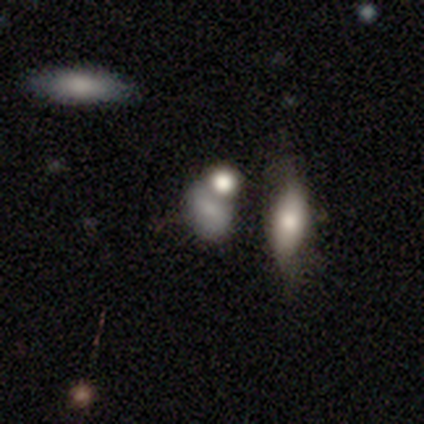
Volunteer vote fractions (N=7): Morphology: type=smooth (57%); roundness=in between (100%); merging=none (25%, tied with minor disturbance, major disturbance and merger).